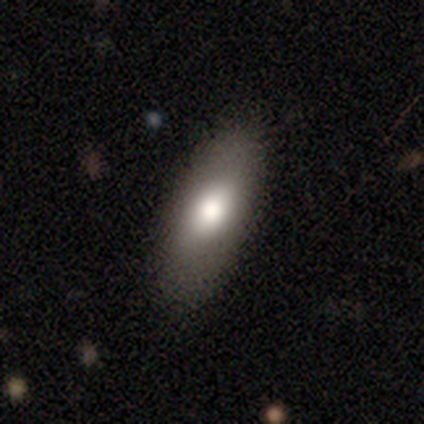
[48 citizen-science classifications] A smooth galaxy with no disk features (79%) that is in between round and cigar-shaped (92%). Merging: none (83%).